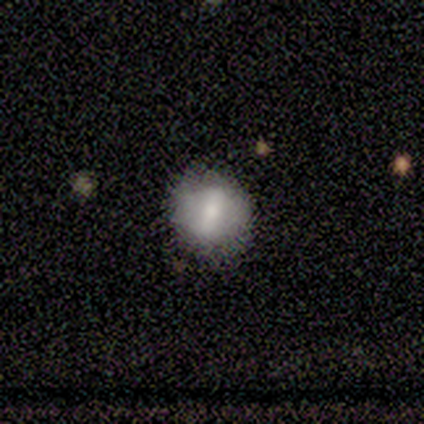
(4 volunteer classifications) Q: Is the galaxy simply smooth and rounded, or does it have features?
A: smooth — 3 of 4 (75%).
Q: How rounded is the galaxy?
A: round — 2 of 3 (67%).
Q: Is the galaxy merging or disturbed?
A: none — 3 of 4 (75%).